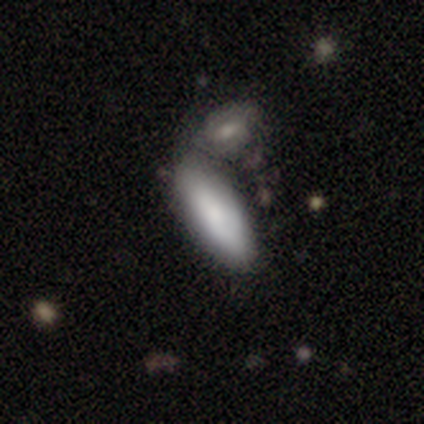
smooth_or_featured: smooth (p=0.80) [alt: featured or disk p=0.16]
how_rounded: in between (p=0.81) [alt: cigar-shaped p=0.19]
merging: merger (p=0.39) [alt: none p=0.29]